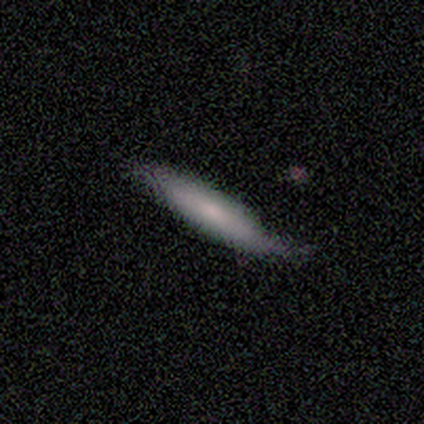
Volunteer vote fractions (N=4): Smooth or featured: smooth — 75% (featured or disk — 25%)
How rounded: cigar-shaped — 100%
Merging: none — 50% (minor disturbance — 25%)